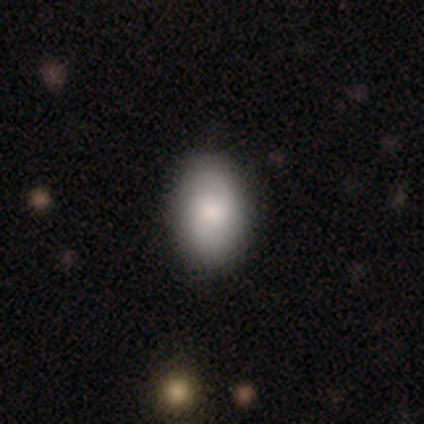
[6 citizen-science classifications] Q: Smooth or featured?
A: smooth (83%); runner-up: featured or disk (17%)
Q: How rounded?
A: round (60%); runner-up: in between (40%)
Q: Merging?
A: none (100%)